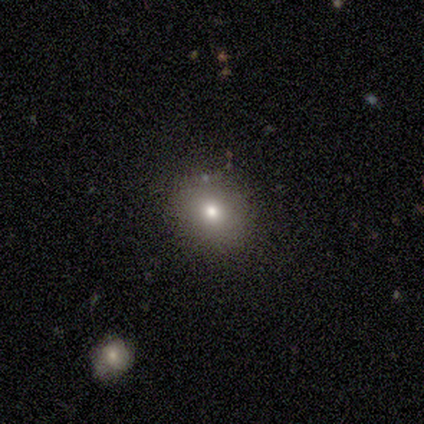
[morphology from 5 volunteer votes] Overall: smooth (100%). How rounded: round (100%). Merging: none (80%).